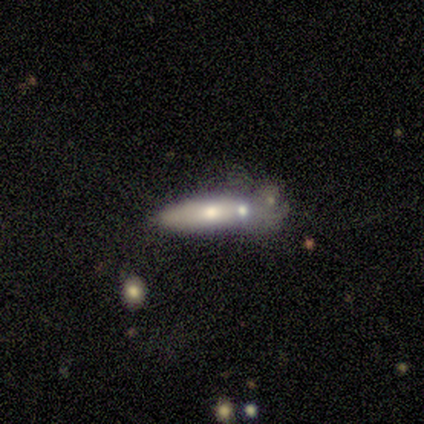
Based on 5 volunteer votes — A featured or disk galaxy (60%) with a strong bar (33%, tied with weak and no), no spiral arms (100%) and a small central bulge (67%).

Vote fractions:
- Smooth or featured? featured or disk: 60% / smooth: 20% / star or artifact: 20%
- Edge-on disk? no: 100% / yes: 0%
- Bar? strong: 33% (tied) / weak: 33% (tied) / no: 33% (tied)
- Spiral arms? no: 100% / yes: 0%
- Bulge size? small: 67% / moderate: 33% / dominant: 0% / large: 0% / none: 0%
- Merging? minor disturbance: 50% / none: 25% / merger: 25% / major disturbance: 0%